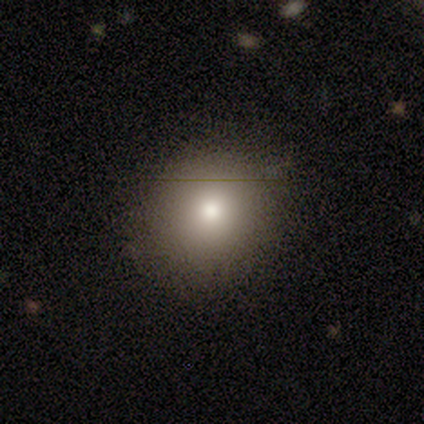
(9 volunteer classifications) Overall: smooth (78%). How rounded: round (71%). Merging: none (62%; minor disturbance 25%).